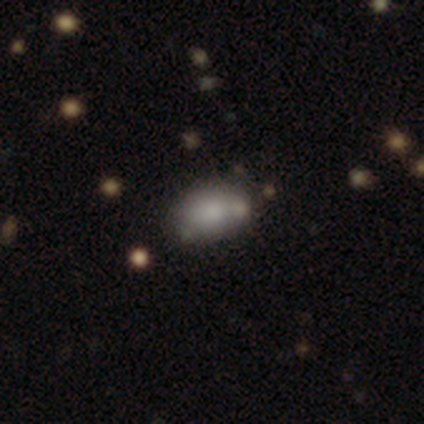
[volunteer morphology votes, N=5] type=smooth (40%, tied with star or artifact); roundness=in between (100%); merging=none (67%).